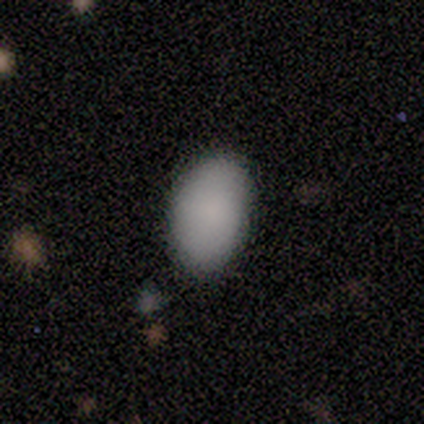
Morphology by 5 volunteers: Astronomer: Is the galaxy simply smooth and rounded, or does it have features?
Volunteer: smooth — 80%.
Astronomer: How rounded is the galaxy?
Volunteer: in between — 100%.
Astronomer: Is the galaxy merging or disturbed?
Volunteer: none — 100%.